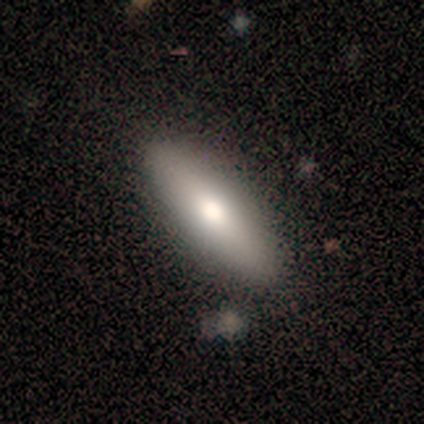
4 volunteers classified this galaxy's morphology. Smooth or featured?
  - smooth: 75% *
  - featured or disk: 25%
  - star or artifact: 0%
How rounded?
  - in between: 67% *
  - cigar-shaped: 33%
  - round: 0%
Merging?
  - none: 75% *
  - merger: 25%
  - minor disturbance: 0%
  - major disturbance: 0%